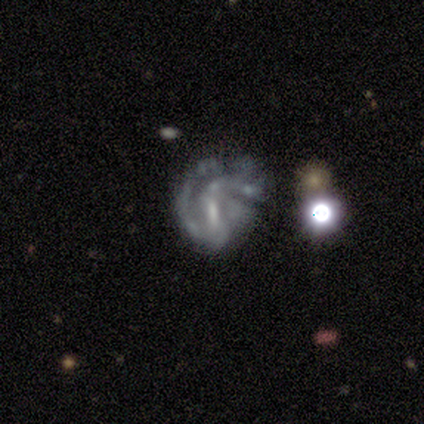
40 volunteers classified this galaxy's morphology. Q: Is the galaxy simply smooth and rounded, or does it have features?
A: featured or disk — 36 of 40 (90%).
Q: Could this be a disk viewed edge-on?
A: no — 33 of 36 (92%).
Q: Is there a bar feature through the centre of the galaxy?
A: weak — 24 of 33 (73%).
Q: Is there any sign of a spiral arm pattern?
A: yes — 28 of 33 (85%).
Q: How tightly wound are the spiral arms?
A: tight — 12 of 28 (43%).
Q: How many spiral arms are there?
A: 2 — 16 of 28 (57%).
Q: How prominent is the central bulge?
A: small — 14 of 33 (42%).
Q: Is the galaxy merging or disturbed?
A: major disturbance — 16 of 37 (43%).